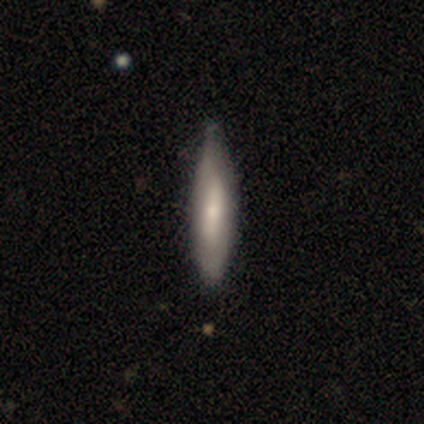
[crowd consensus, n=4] Smooth or featured? 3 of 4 (75%) said smooth. How rounded? 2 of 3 (67%) said cigar-shaped. Merging? 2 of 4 (50%, tied with minor disturbance) said none.